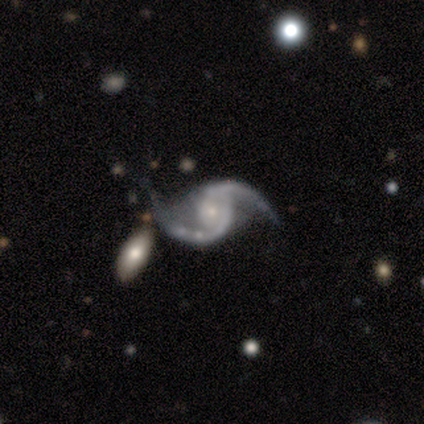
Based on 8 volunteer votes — Overall: featured or disk (100%). Edge-on disk: no (100%). Bar: no (75%). Spiral arms: yes (100%). Spiral arm count: 2 (100%). Spiral winding: loose (88%). Bulge size: small (62%; moderate 38%). Merging: none (62%; minor disturbance 25%).